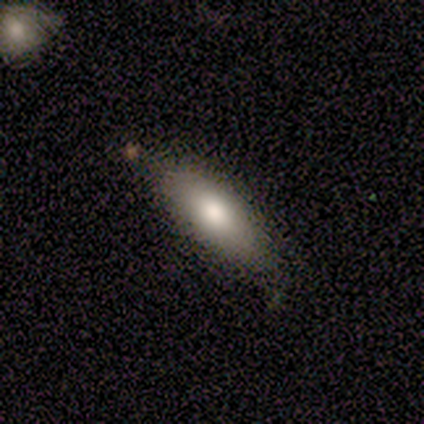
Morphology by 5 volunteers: A smooth galaxy with no disk features (100%) that is round (40%, tied with cigar-shaped). Merging: none (80%).